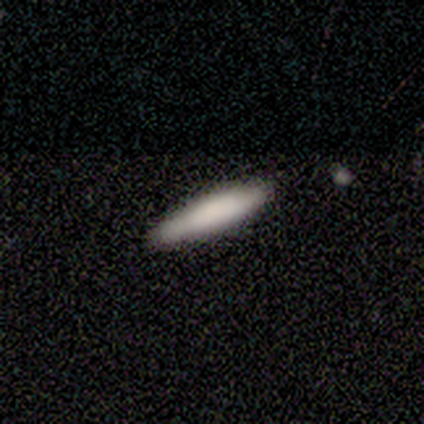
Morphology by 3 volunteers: Smooth or featured? 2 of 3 (67%) said smooth. How rounded? 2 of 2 (100%) said cigar-shaped. Merging? 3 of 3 (100%) said none.